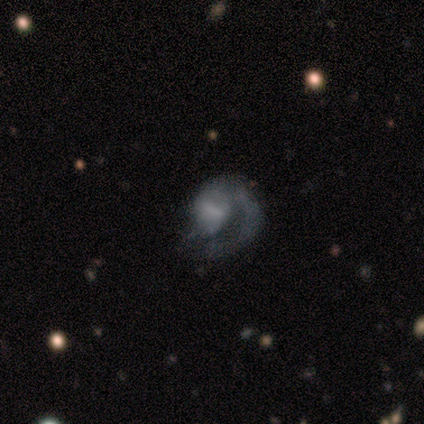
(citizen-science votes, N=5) smooth-or-featured: featured or disk: 100% | smooth: 0% | star or artifact: 0%
  disk-edge-on: no: 100% | yes: 0%
    bar: weak: 60% | no: 40% | strong: 0%
    has-spiral-arms: yes: 100% | no: 0%
      spiral-winding: medium: 60% | tight: 20% | loose: 20%
      spiral-arm-count: 1: 100% | 2: 0% | 3: 0% | 4: 0% | more than 4: 0% | can't tell: 0%
    bulge-size: small: 40% | large: 20% | moderate: 20% | none: 20% | dominant: 0%
  merging: major disturbance: 80% | minor disturbance: 20% | none: 0% | merger: 0%